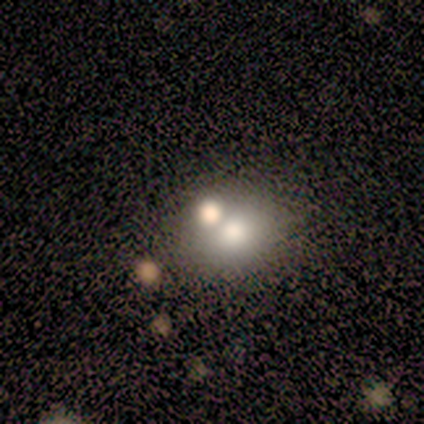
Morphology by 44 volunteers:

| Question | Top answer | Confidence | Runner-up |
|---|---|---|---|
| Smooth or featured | smooth | 68% | star or artifact (18%) |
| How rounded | round | 63% | in between (33%) |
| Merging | none | 61% | merger (31%) |